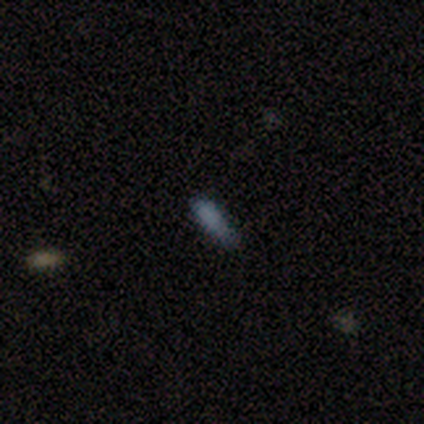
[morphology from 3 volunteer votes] This is likely a star or artifact rather than a galaxy (67%).